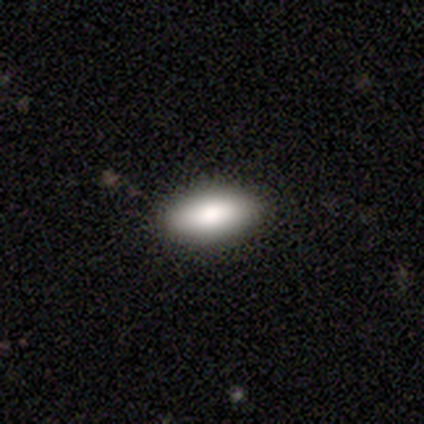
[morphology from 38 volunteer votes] Smooth or featured: smooth — 74% (featured or disk — 16%)
How rounded: in between — 89% (cigar-shaped — 7%)
Merging: none — 91% (minor disturbance — 6%)